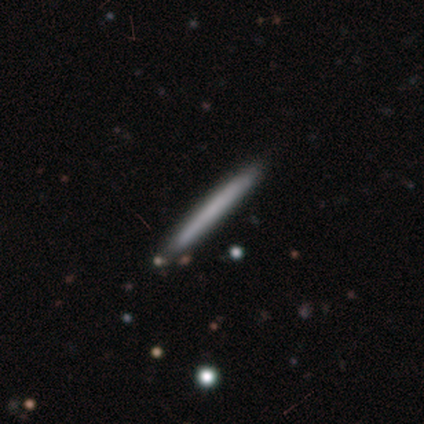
Smooth or featured: smooth — 67% (featured or disk — 31%)
How rounded: cigar-shaped — 96% (in between — 4%)
Merging: none — 100%